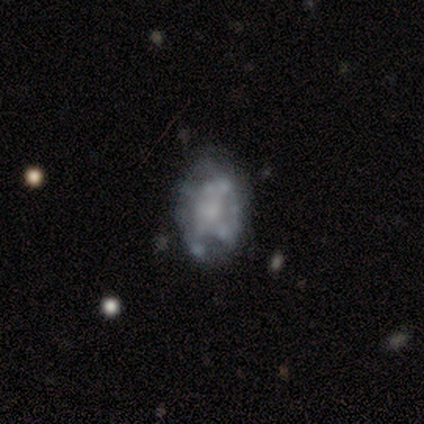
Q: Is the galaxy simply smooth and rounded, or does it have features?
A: featured or disk — 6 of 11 (55%).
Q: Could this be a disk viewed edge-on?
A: no — 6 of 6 (100%).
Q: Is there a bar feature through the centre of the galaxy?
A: no — 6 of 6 (100%).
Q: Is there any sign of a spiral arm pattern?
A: no — 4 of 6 (67%).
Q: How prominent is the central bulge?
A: none — 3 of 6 (50%).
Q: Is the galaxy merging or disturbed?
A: none — 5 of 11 (45%).